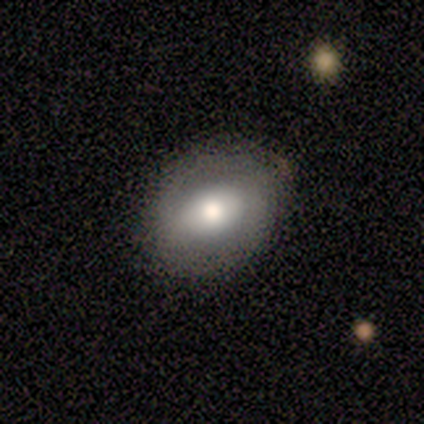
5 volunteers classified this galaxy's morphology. Smooth or featured?
  - smooth: 60% *
  - featured or disk: 40%
  - star or artifact: 0%
How rounded?
  - round: 67% *
  - in between: 33%
  - cigar-shaped: 0%
Merging?
  - none: 100% *
  - minor disturbance: 0%
  - major disturbance: 0%
  - merger: 0%